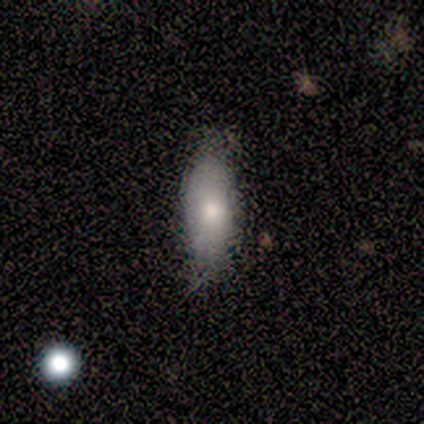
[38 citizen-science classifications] A smooth galaxy with no disk features (79%) that is in between round and cigar-shaped (53%).

Vote fractions:
- Smooth or featured? smooth: 79% / featured or disk: 21% / star or artifact: 0%
- How rounded? in between: 53% / cigar-shaped: 43% / round: 3%
- Merging? none: 68% / minor disturbance: 29% / major disturbance: 3% / merger: 0%